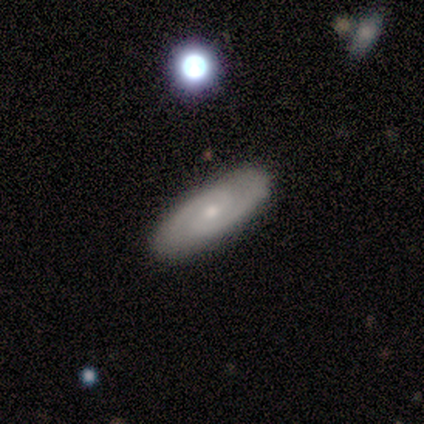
This appears to be a smooth galaxy with no disk features (40%, tied with featured or disk) that is in between round and cigar-shaped (100%). Merging: none (100%).